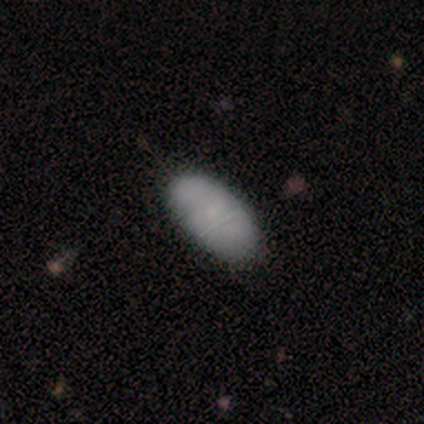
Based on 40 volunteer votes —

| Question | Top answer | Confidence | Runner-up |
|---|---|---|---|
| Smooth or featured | smooth | 72% | featured or disk (20%) |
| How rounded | in between | 97% | cigar-shaped (3%) |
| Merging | none | 51% | minor disturbance (16%) |